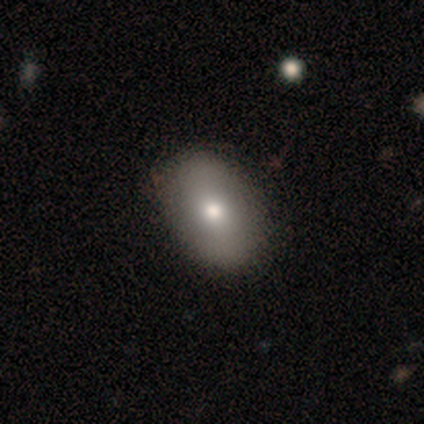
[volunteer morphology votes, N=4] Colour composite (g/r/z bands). It shows a smooth galaxy with no disk features (75%) that is in between round and cigar-shaped (67%). Merging: none (67%).